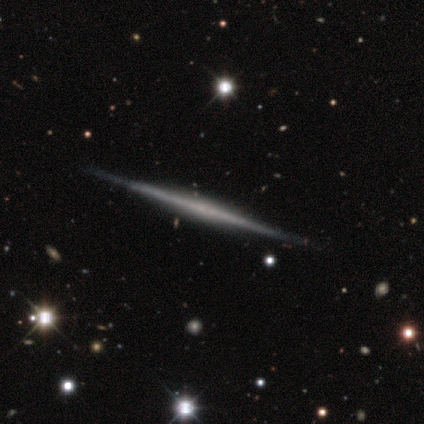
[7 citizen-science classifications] This is likely a featured or disk galaxy (71%). It is clearly viewed edge-on (100%). Edge-on bulge: marginally none (40%, tied with rounded). Merging: clearly none (86%).